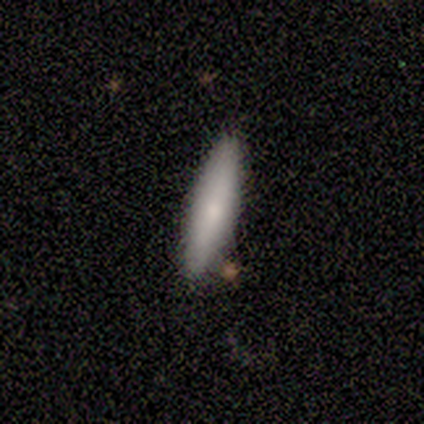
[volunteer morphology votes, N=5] Volunteers were most divided on "how rounded": cigar-shaped: 75%, in between: 25%, round: 0%. More confident: smooth or featured — smooth (80%); merging — none (80%).